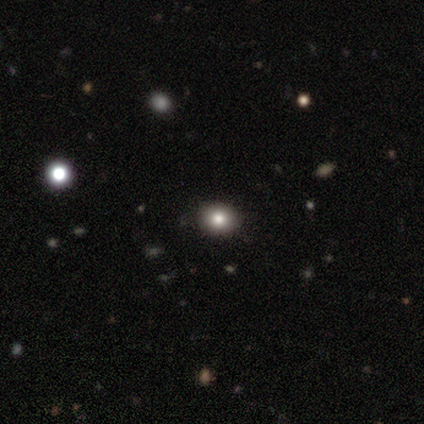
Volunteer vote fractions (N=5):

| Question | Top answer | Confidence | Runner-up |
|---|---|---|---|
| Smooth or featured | smooth | 100% | — |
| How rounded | round | 60% | in between (40%) |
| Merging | none | 100% | — |